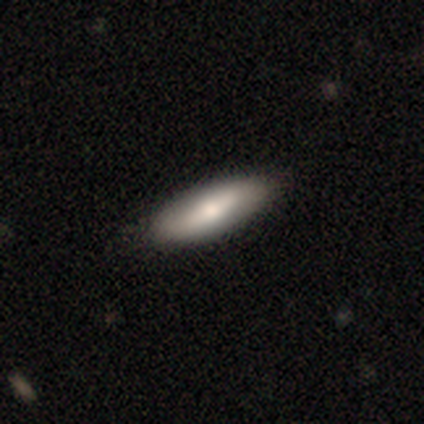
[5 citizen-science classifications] A smooth galaxy with no disk features (40%, tied with featured or disk) that is in between round and cigar-shaped (50%, tied with cigar-shaped).

Vote fractions:
- Smooth or featured? smooth: 40% (tied) / featured or disk: 40% (tied) / star or artifact: 20%
- How rounded? in between: 50% (tied) / cigar-shaped: 50% (tied) / round: 0%
- Merging? none: 100% / minor disturbance: 0% / major disturbance: 0% / merger: 0%